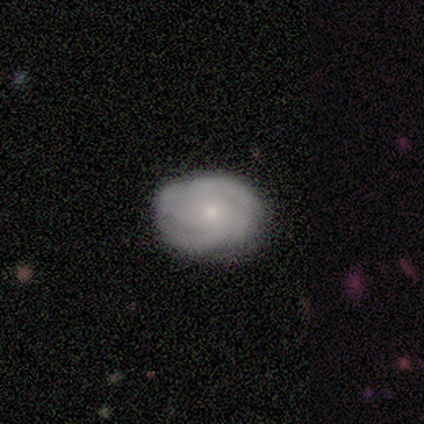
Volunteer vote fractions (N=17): A featured or disk galaxy (65%) with no bar (82%), 3 (45%) tight (45%) spiral arms (100%) and a small central bulge (91%).

Vote fractions:
- Smooth or featured? featured or disk: 65% / smooth: 18% / star or artifact: 18%
- Edge-on disk? no: 100% / yes: 0%
- Bar? no: 82% / strong: 9% / weak: 9%
- Spiral arms? yes: 100% / no: 0%
- Spiral winding? tight: 45% / medium: 27% / loose: 27%
- Spiral arm count? 3: 45% / 4: 36% / can't tell: 18% / 1: 0% / 2: 0% / more than 4: 0%
- Bulge size? small: 91% / moderate: 9% / dominant: 0% / large: 0% / none: 0%
- Merging? none: 100% / minor disturbance: 0% / major disturbance: 0% / merger: 0%